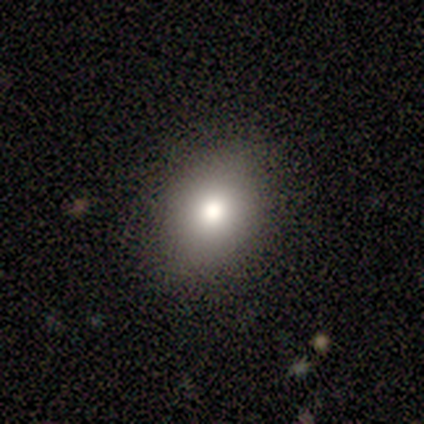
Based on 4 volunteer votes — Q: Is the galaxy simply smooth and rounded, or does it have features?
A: smooth — 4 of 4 (100%).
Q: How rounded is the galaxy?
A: in between — 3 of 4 (75%).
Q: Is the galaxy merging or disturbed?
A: none — 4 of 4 (100%).